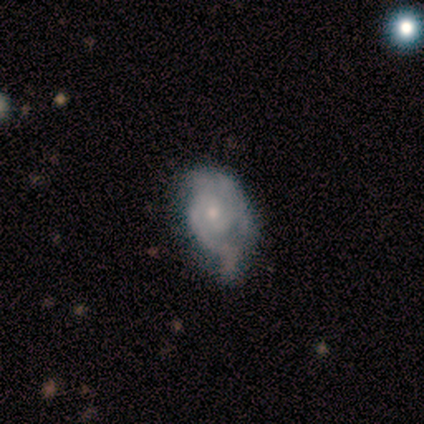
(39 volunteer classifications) smooth-or-featured: featured or disk: 77% | smooth: 13% | star or artifact: 10%
  disk-edge-on: no: 93% | yes: 7%
    bar: no: 75% | weak: 25% | strong: 0%
    has-spiral-arms: yes: 96% | no: 4%
      spiral-winding: tight: 59% | medium: 33% | loose: 7%
      spiral-arm-count: 2: 78% | 1: 11% | can't tell: 11% | 3: 0% | 4: 0% | more than 4: 0%
    bulge-size: small: 64% | moderate: 32% | none: 4% | dominant: 0% | large: 0%
  merging: minor disturbance: 49% | none: 26% | major disturbance: 23% | merger: 3%